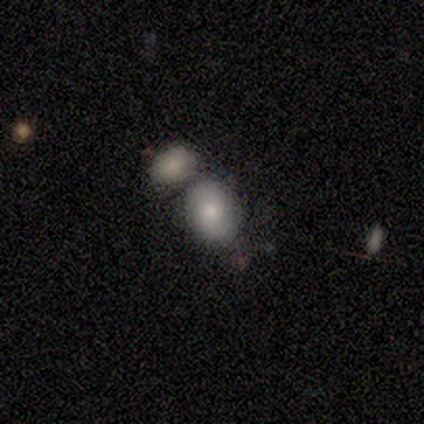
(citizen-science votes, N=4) Smooth or featured? 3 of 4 (75%) said smooth. How rounded? 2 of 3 (67%) said round. Merging? 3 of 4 (75%) said merger.